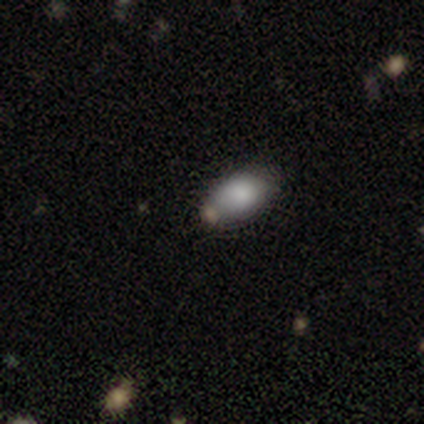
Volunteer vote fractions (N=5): A smooth galaxy with no disk features (100%) that is in between round and cigar-shaped (100%). Merging: none (60%).